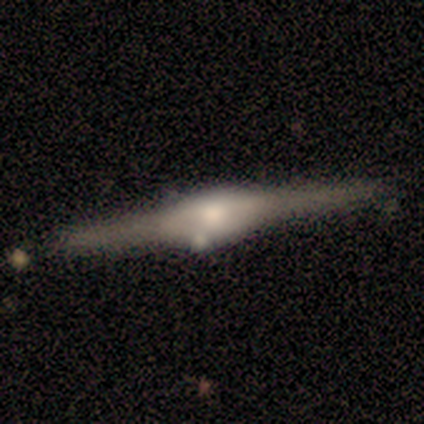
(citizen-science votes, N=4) featured or disk 75%, smooth 25%, star or artifact 0%. Down the decision tree: edge-on disk — yes (100%); edge-on bulge — rounded (67%); merging — none (75%).